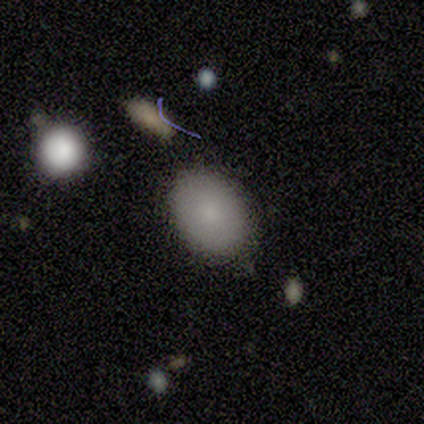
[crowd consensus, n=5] Smooth or featured? smooth (100%)
How rounded? in between (100%)
Merging? none (60%)